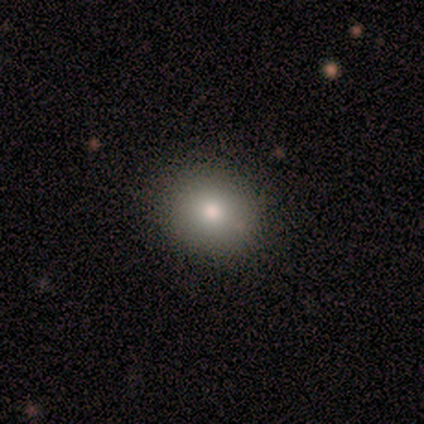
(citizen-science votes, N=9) Smooth or featured?
  - smooth: 67% *
  - featured or disk: 33%
  - star or artifact: 0%
How rounded?
  - round: 67% *
  - in between: 33%
  - cigar-shaped: 0%
Merging?
  - none: 100% *
  - minor disturbance: 0%
  - major disturbance: 0%
  - merger: 0%